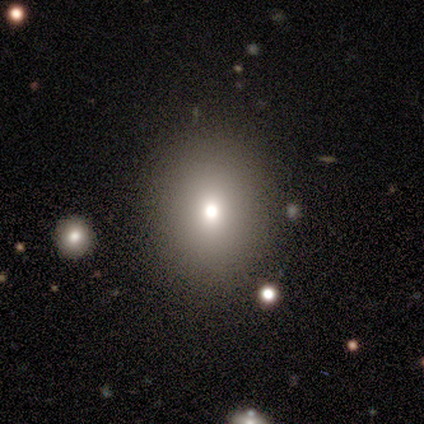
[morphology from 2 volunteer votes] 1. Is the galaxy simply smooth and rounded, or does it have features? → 50% smooth (tied), 50% featured or disk (tied), 0% star or artifact.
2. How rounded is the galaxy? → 100% round, 0% in between, 0% cigar-shaped.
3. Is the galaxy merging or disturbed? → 100% none, 0% minor disturbance, 0% major disturbance, 0% merger.